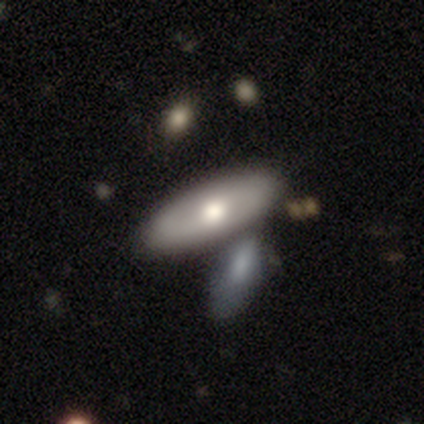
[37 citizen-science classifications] This appears to be a smooth galaxy with no disk features (65%) that is in between round and cigar-shaped (71%). Merging: merger (58%).